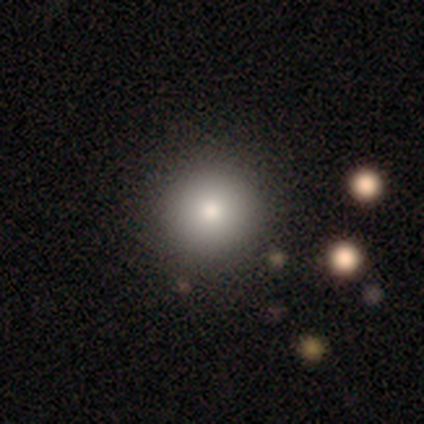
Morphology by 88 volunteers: Smooth or featured? 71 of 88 (81%) said smooth. How rounded? 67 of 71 (94%) said round. Merging? 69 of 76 (91%) said none.